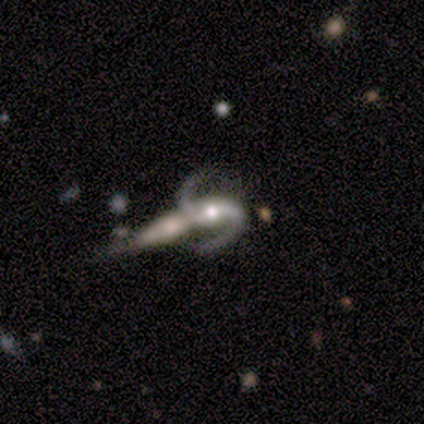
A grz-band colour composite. It shows a featured or disk galaxy (100%) with a strong bar (100%), 2 (100%) loose (100%) spiral arms (100%) and a moderate central bulge (100%). Merging: merger (100%).